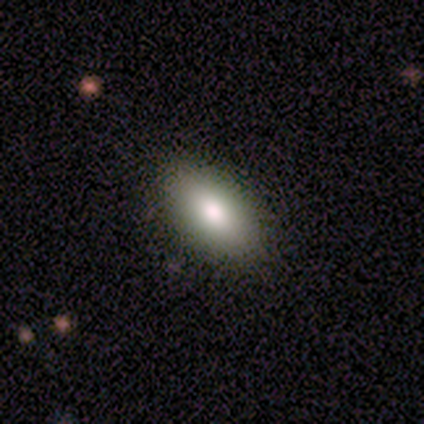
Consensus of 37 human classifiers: A smooth galaxy with no disk features (65%) that is in between round and cigar-shaped (92%). Merging: none (89%).